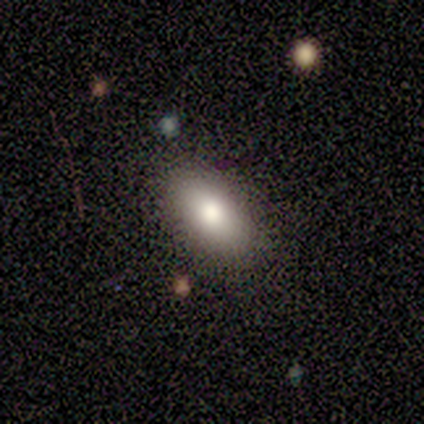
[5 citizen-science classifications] A smooth galaxy with no disk features (60%) that is in between round and cigar-shaped (100%).

Vote fractions:
- Smooth or featured? smooth: 60% / featured or disk: 40% / star or artifact: 0%
- How rounded? in between: 100% / round: 0% / cigar-shaped: 0%
- Merging? none: 80% / minor disturbance: 20% / major disturbance: 0% / merger: 0%